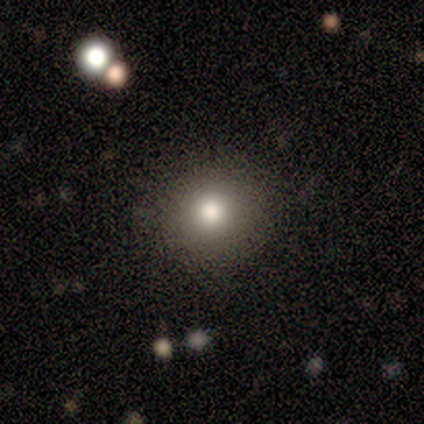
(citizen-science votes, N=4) A smooth galaxy with no disk features (75%) that is round (100%).

Vote fractions:
- Smooth or featured? smooth: 75% / featured or disk: 25% / star or artifact: 0%
- How rounded? round: 100% / in between: 0% / cigar-shaped: 0%
- Merging? none: 100% / minor disturbance: 0% / major disturbance: 0% / merger: 0%